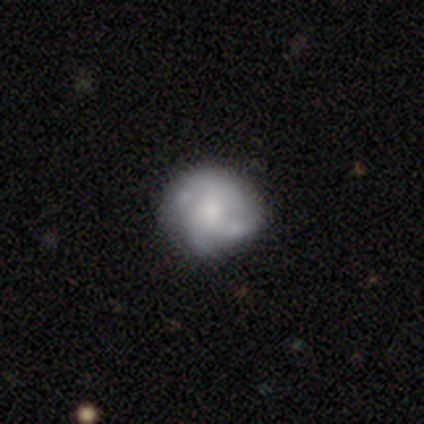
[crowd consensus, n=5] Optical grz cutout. It shows a featured or disk galaxy (80%) with no bar (100%), tight (33%, tied with medium and loose) spiral arms (75%) and a small central bulge (75%). Merging: none (80%).